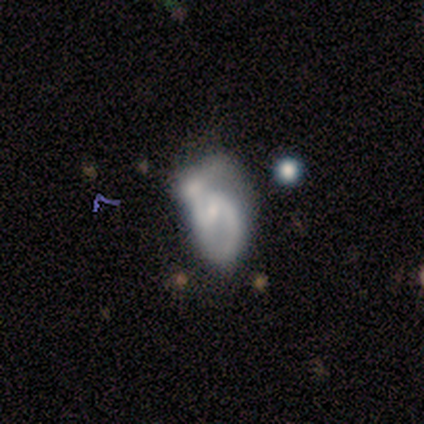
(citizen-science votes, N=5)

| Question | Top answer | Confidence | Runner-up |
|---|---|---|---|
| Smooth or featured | featured or disk | 60% | smooth (20%) |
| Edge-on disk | no | 100% | — |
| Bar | weak | 67% | no (33%) |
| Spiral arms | yes | 100% | — |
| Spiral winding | tight | 67% | loose (33%) |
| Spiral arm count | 2 | 67% | 1 (33%) |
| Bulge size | small | 67% | moderate (33%) |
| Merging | merger | 50% | none (25%) |